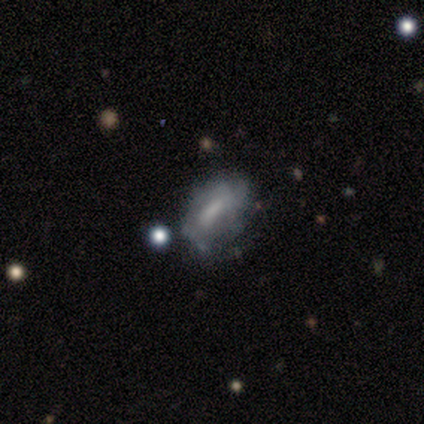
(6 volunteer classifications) Smooth or featured: featured or disk — 67% (smooth — 33%)
Edge-on disk: no — 100%
Bar: weak — 50% (tied with no — 50%)
Spiral arms: no — 75% (yes — 25%)
Bulge size: none — 50% (large — 25%)
Merging: none — 67% (minor disturbance — 17%)